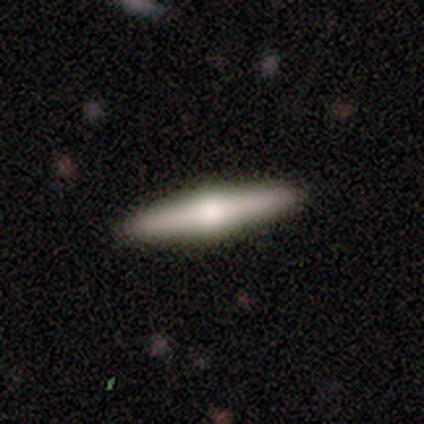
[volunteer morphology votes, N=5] smooth_or_featured: featured or disk (p=0.60) [alt: smooth p=0.40]
disk_edge_on: yes (p=1.00)
edge_on_bulge: rounded (p=0.67) [alt: none p=0.33]
merging: none (p=1.00)